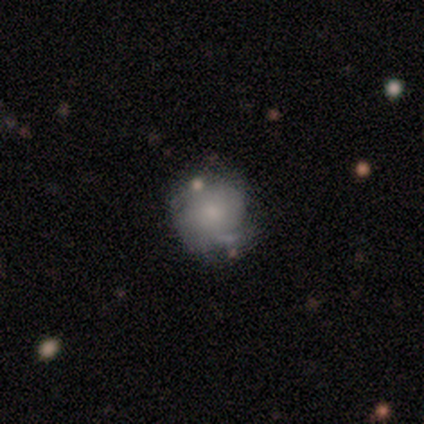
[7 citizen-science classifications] A featured or disk galaxy (57%) with no bar (100%), 2 (67%) tight (33%, tied with medium and loose) spiral arms (75%) and a small central bulge (75%).

Vote fractions:
- Smooth or featured? featured or disk: 57% / smooth: 29% / star or artifact: 14%
- Edge-on disk? no: 100% / yes: 0%
- Bar? no: 100% / strong: 0% / weak: 0%
- Spiral arms? yes: 75% / no: 25%
- Spiral winding? tight: 33% (tied) / medium: 33% (tied) / loose: 33% (tied)
- Spiral arm count? 2: 67% / can't tell: 33% / 1: 0% / 3: 0% / 4: 0% / more than 4: 0%
- Bulge size? small: 75% / moderate: 25% / dominant: 0% / large: 0% / none: 0%
- Merging? none: 50% / minor disturbance: 33% / merger: 17% / major disturbance: 0%